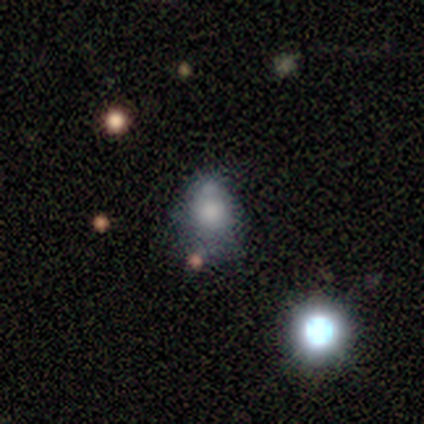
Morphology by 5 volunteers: Overall: smooth (60%; featured or disk 20%). How rounded: round (67%; in between 33%). Merging: none (75%).